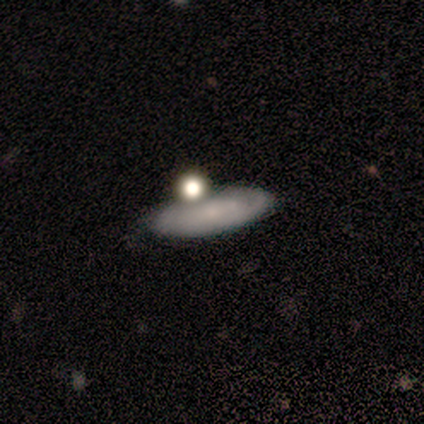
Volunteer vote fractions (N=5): A smooth galaxy with no disk features (60%) that is in between round and cigar-shaped (67%). Merging: none (40%, tied with merger).